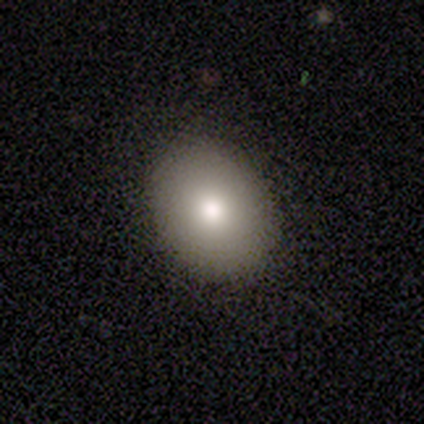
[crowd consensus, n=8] Smooth or featured? 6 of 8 (75%) said smooth. How rounded? 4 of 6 (67%) said in between. Merging? 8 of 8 (100%) said none.